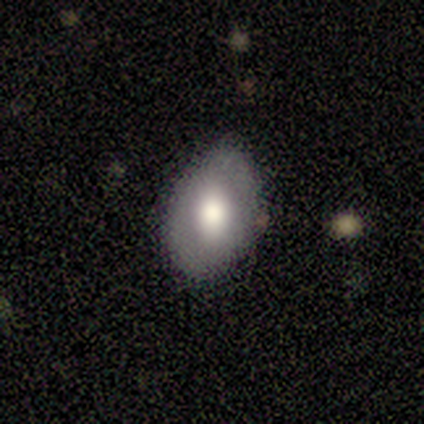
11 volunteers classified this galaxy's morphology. This is likely a smooth galaxy (64%). How rounded: clearly in between (100%). Merging: possibly none (55%).